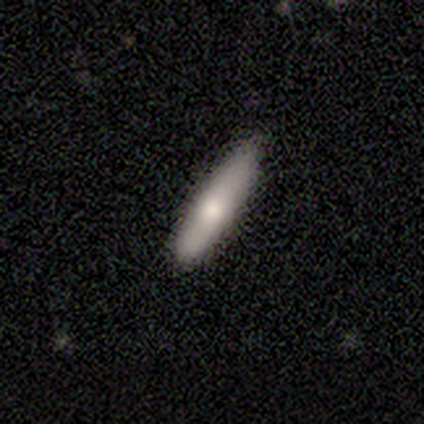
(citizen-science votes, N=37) Volunteers were most divided on "smooth or featured": smooth: 70%, featured or disk: 19%, star or artifact: 11%. More confident: how rounded — cigar-shaped (88%); merging — none (79%).